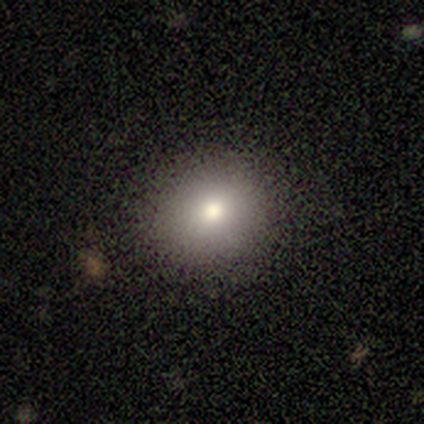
Overall: smooth (67%; star or artifact 33%). How rounded: round (100%). Merging: none (100%).